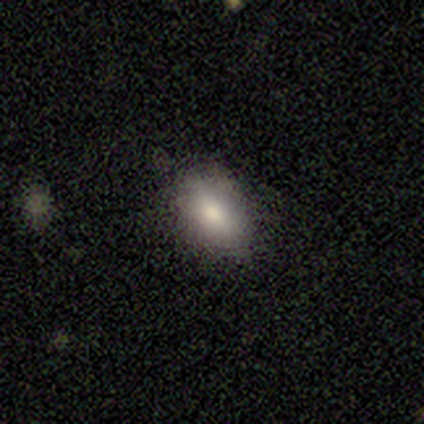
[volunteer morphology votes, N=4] smooth_or_featured: smooth (p=0.75) [alt: featured or disk p=0.25]
how_rounded: in between (p=0.67) [alt: cigar-shaped p=0.33]
merging: none (p=0.75) [alt: minor disturbance p=0.25]